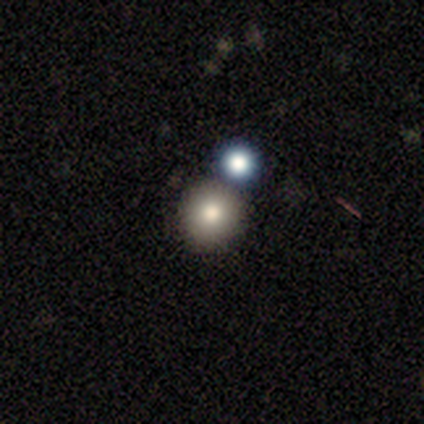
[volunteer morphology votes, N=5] smooth_or_featured: smooth (p=0.80) [alt: star or artifact p=0.20]
how_rounded: round (p=1.00)
merging: none (p=1.00)